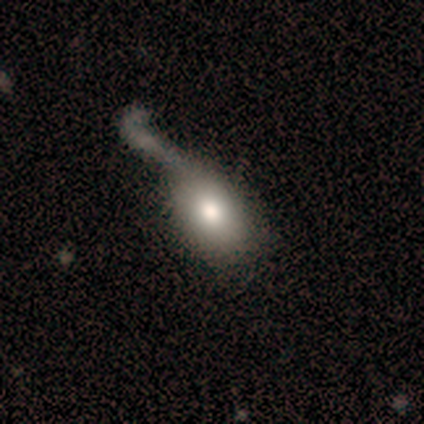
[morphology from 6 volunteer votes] smooth 67%, featured or disk 33%, star or artifact 0%. Down the decision tree: how rounded — in between (75%); merging — major disturbance (67%).